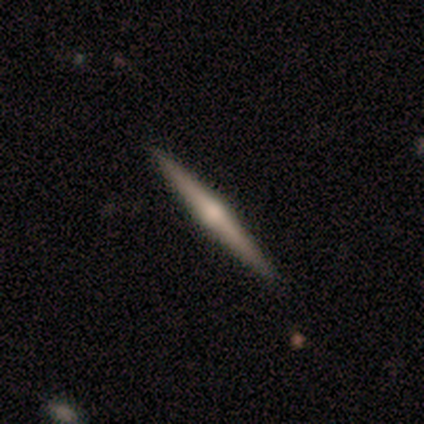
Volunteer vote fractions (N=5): Smooth or featured? 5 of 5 (100%) said featured or disk. Edge-on disk? 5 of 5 (100%) said yes. Edge-on bulge? 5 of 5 (100%) said rounded. Merging? 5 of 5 (100%) said none.